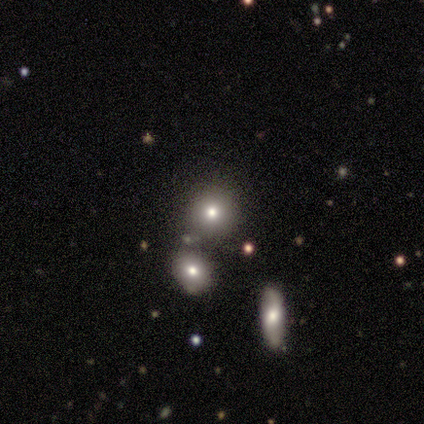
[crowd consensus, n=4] Smooth or featured: smooth — 100%
How rounded: round — 50% (in between — 25%)
Merging: none — 75% (minor disturbance — 25%)